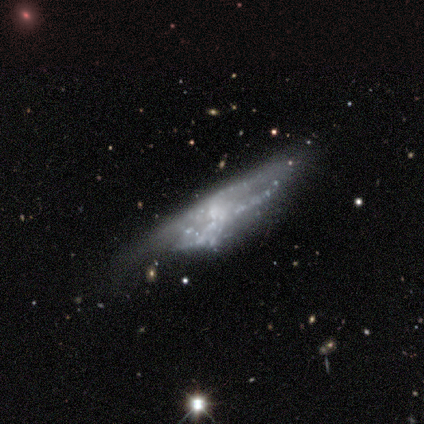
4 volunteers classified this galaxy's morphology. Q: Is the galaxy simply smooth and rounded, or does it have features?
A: star or artifact — 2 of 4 (50%).